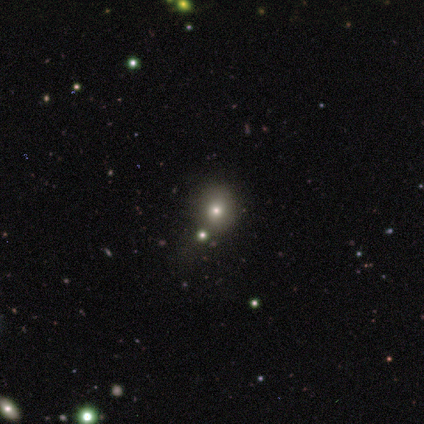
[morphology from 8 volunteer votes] This is clearly a smooth galaxy (88%). How rounded: clearly round (100%). Merging: likely none (71%).